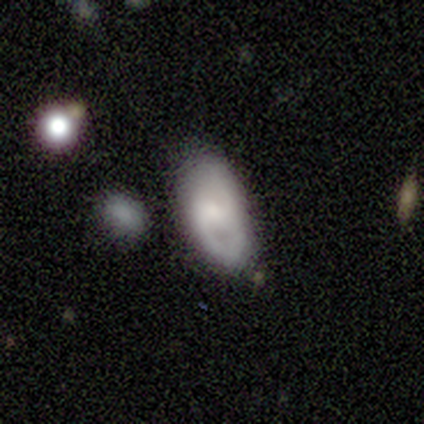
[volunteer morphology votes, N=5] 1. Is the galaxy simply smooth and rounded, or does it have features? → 60% smooth, 40% featured or disk, 0% star or artifact.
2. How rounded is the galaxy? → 100% in between, 0% round, 0% cigar-shaped.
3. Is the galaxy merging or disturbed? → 60% minor disturbance, 40% none, 0% major disturbance, 0% merger.